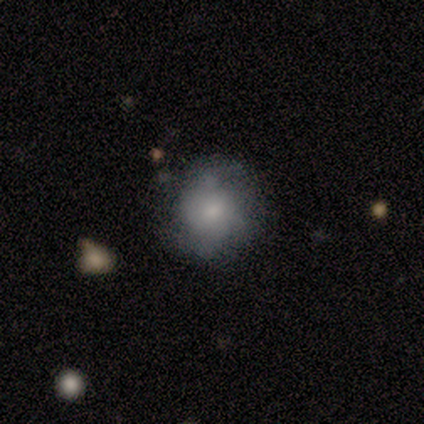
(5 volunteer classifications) Volunteers were most divided on "merging": none: 60%, minor disturbance: 40%, major disturbance: 0%, merger: 0%. More confident: how rounded — round (100%); smooth or featured — smooth (80%).